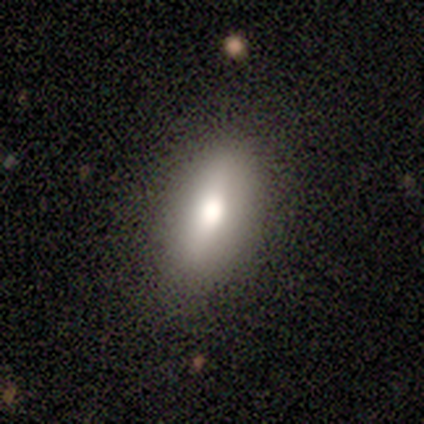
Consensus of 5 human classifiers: A smooth galaxy with no disk features (60%) that is in between round and cigar-shaped (100%).

Vote fractions:
- Smooth or featured? smooth: 60% / featured or disk: 20% / star or artifact: 20%
- How rounded? in between: 100% / round: 0% / cigar-shaped: 0%
- Merging? none: 75% / minor disturbance: 25% / major disturbance: 0% / merger: 0%